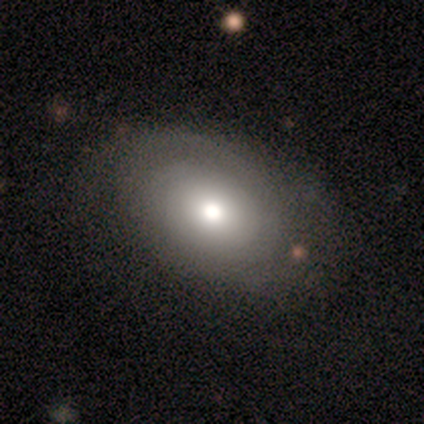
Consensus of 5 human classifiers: A smooth galaxy with no disk features (60%) that is in between round and cigar-shaped (100%). Merging: none (80%).